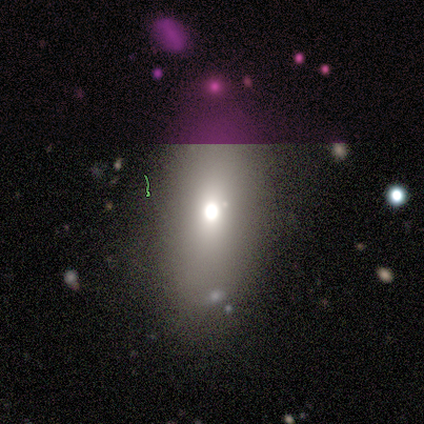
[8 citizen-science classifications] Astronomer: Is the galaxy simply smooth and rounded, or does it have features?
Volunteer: smooth — 50%.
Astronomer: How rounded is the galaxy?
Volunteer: in between — 100%.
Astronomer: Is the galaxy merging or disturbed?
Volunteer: none — 83%.